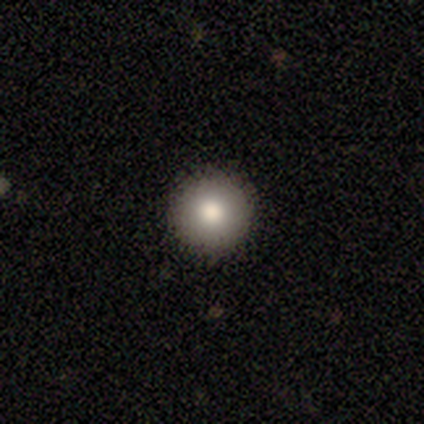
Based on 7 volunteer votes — Smooth or featured: smooth — 71% (featured or disk — 29%)
How rounded: round — 100%
Merging: none — 86% (minor disturbance — 14%)